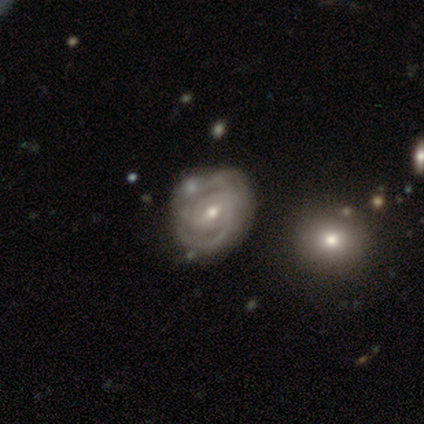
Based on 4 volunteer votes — Smooth or featured? featured or disk (50%)
Edge-on disk? no (100%)
Bar? weak (100%)
Spiral arms? yes (100%)
Spiral winding? tight (100%)
Spiral arm count? can't tell (100%)
Bulge size? small (100%)
Merging? none (67%)